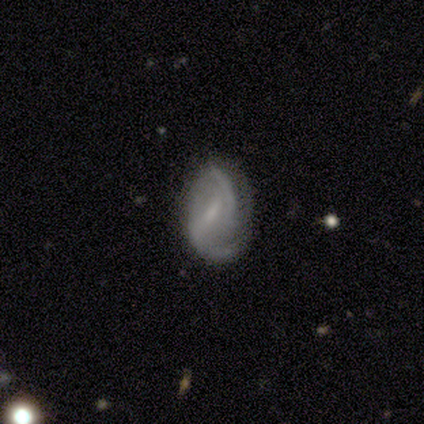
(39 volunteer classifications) Morphology: type=featured or disk (90%); edge-on=no (100%); bar=weak (69%); spiral arms=yes (94%); winding=medium (64%); arm count=2 (70%); bulge=small (54%); merging=none (74%).